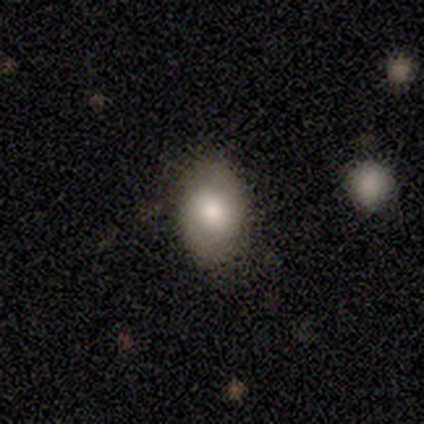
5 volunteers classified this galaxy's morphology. smooth 80%, featured or disk 20%, star or artifact 0%. Down the decision tree: how rounded — in between (100%); merging — none (60%).